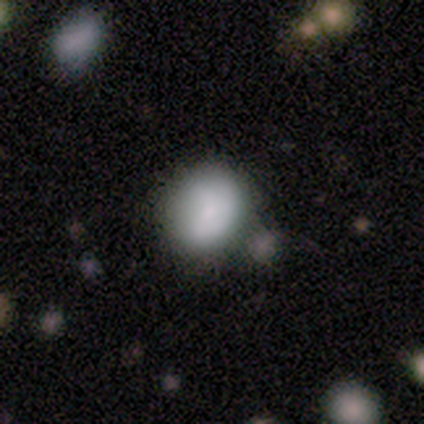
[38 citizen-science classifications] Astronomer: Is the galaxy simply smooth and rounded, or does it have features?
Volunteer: smooth — 87%.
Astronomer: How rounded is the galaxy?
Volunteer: round — 58% (runner-up: in between, 42%).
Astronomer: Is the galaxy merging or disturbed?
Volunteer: none — 62%.